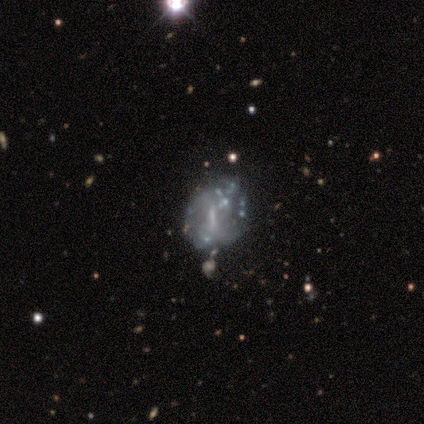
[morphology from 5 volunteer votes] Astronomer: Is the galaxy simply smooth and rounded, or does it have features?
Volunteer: featured or disk — 40%, tied with star or artifact at 40%.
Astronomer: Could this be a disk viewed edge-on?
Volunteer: no — 100%.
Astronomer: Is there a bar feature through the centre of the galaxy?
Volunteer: weak — 100%.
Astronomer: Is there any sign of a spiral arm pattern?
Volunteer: no — 100%.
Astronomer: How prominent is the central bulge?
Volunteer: none — 100%.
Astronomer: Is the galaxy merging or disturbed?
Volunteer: minor disturbance — 67%.